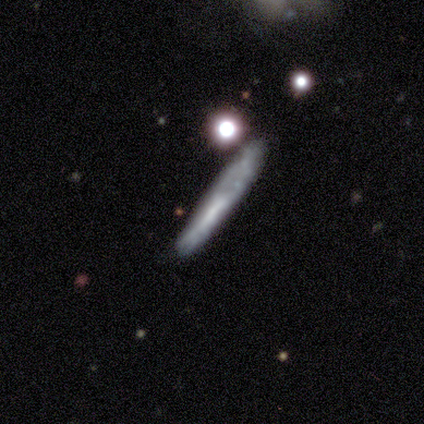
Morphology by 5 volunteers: Volunteers were most divided on "smooth or featured": smooth: 60%, featured or disk: 40%, star or artifact: 0%. More confident: how rounded — cigar-shaped (100%); merging — minor disturbance (60%).